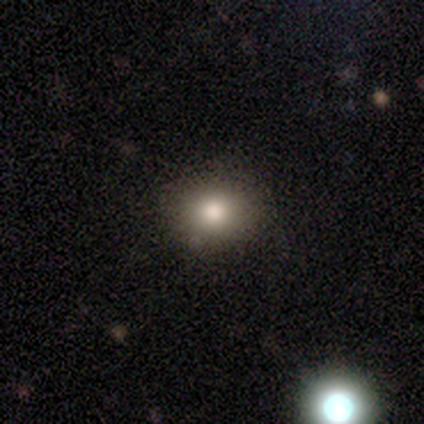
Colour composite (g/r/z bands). It shows a smooth galaxy with no disk features (60%) that is in between round and cigar-shaped (67%). Merging: none (75%).